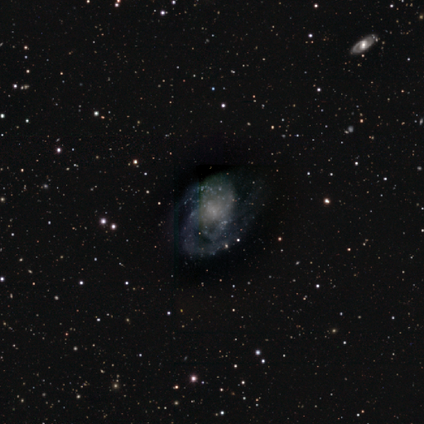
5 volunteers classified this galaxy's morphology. Smooth or featured? 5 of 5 (100%) said featured or disk. Edge-on disk? 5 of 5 (100%) said no. Bar? 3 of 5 (60%) said no. Spiral arms? 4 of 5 (80%) said yes. Spiral winding? 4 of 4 (100%) said medium. Spiral arm count? 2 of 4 (50%, tied with 3) said 2. Bulge size? 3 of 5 (60%) said small. Merging? 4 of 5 (80%) said none.